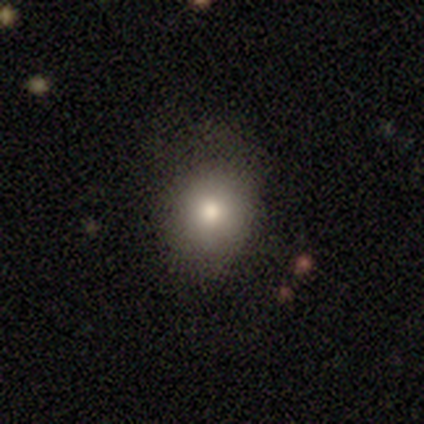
This appears to be a smooth galaxy with no disk features (60%) that is round (100%). Merging: none (100%).